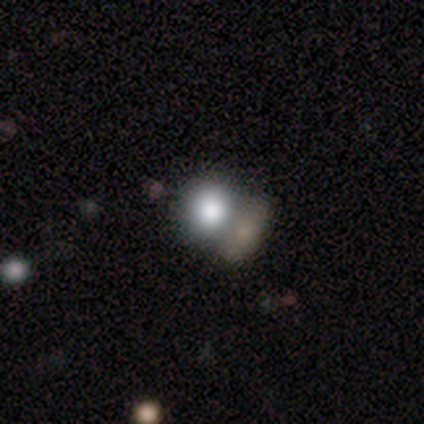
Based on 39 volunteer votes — Morphology: type=smooth (79%); roundness=round (84%); merging=merger (58%).